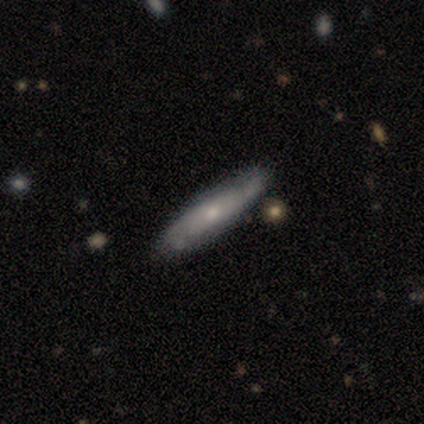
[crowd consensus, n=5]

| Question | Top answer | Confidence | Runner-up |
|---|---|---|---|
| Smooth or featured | featured or disk | 80% | smooth (20%) |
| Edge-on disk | yes | 50% | tied: no (50%) |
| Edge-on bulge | none | 50% | tied: rounded (50%) |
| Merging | none | 80% | minor disturbance (20%) |